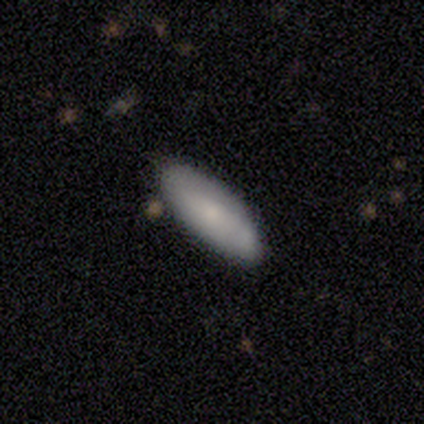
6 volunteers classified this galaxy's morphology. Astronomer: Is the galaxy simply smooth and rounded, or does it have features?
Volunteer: smooth — 83%.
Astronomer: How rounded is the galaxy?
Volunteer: in between — 80%.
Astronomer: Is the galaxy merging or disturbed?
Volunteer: none — 50%, tied with minor disturbance at 50%.